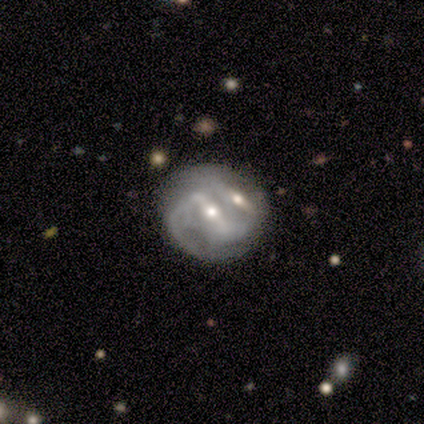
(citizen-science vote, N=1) This appears to be a featured or disk galaxy (100%) with a strong bar (100%), 2 (100%) loose (100%) spiral arms (100%) and a moderate central bulge (100%). Merging: merger (100%).